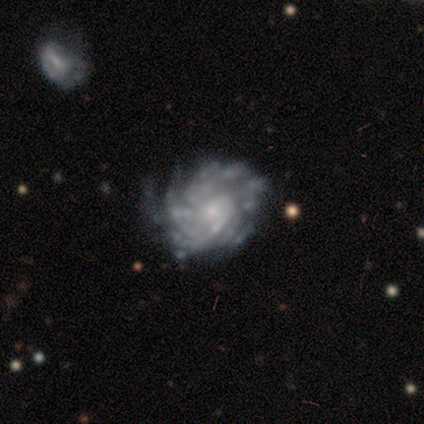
A featured or disk galaxy (85%) with no bar (85%), tight (74%) spiral arms (76%) and a small central bulge (55%).

Vote fractions:
- Smooth or featured? featured or disk: 85% / star or artifact: 9% / smooth: 6%
- Edge-on disk? no: 98% / yes: 2%
- Bar? no: 85% / weak: 13% / strong: 2%
- Spiral arms? yes: 76% / no: 24%
- Spiral winding? tight: 74% / medium: 19% / loose: 7%
- Spiral arm count? can't tell: 50% / more than 4: 26% / 1: 7% / 4: 7% / 2: 5% / 3: 5%
- Bulge size? small: 55% / moderate: 22% / none: 15% / dominant: 5% / large: 4%
- Merging? none: 38% / minor disturbance: 22% / major disturbance: 8% / merger: 0%